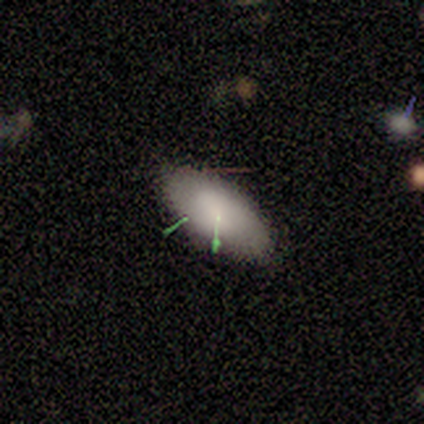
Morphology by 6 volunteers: This is clearly a smooth galaxy (83%). How rounded: clearly in between (100%). Merging: clearly none (100%).